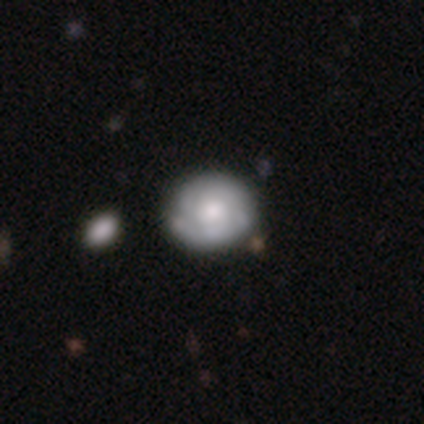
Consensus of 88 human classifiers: This is likely a featured or disk galaxy (64%). It is clearly not viewed edge-on (98%). Bar: likely no (78%). Spiral arm pattern: clearly yes (85%). Spiral arm count: marginally 2 (43%). Spiral winding: likely tight (70%). Central bulge: possibly moderate (49%). Merging: likely none (71%).